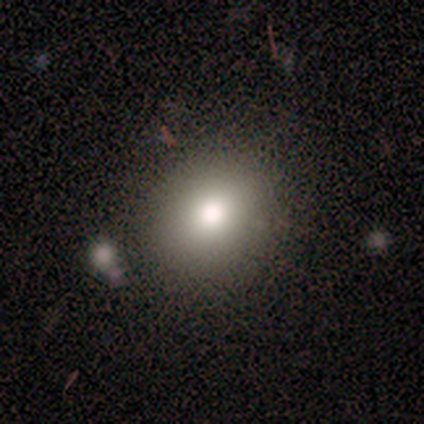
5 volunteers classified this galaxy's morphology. A smooth galaxy with no disk features (100%) that is round (80%). Merging: none (100%).